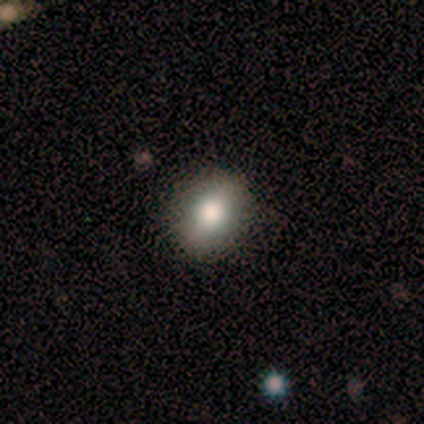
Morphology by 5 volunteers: Smooth or featured? 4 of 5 (80%) said smooth. How rounded? 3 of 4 (75%) said round. Merging? 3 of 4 (75%) said none.